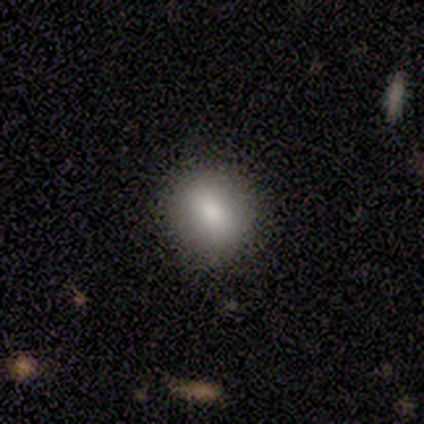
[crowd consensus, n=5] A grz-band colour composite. It shows a smooth galaxy with no disk features (60%) that is round (100%). Merging: none (100%).